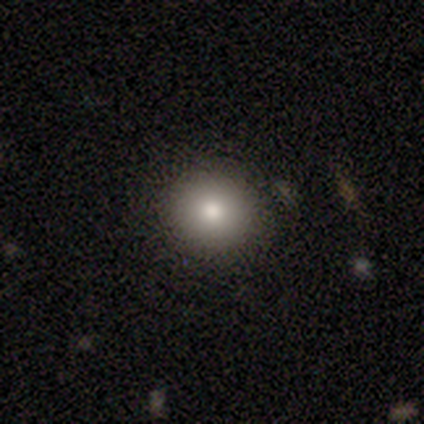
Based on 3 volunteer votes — A smooth galaxy with no disk features (100%) that is round (100%). Merging: none (100%).